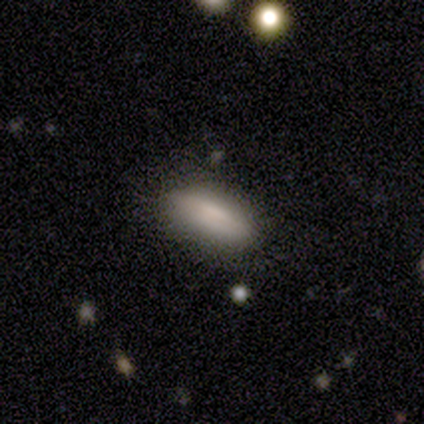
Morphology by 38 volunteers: Smooth or featured? smooth (84%)
How rounded? in between (59%)
Merging? none (91%)